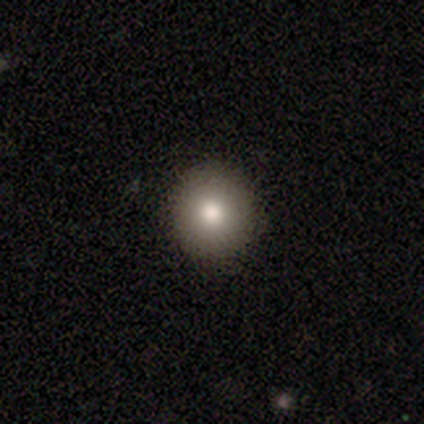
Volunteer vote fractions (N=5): Volunteers were most divided on "smooth or featured" (2-way tie): featured or disk: 40%, star or artifact: 40%, smooth: 20%. More confident: edge-on disk — no (100%); bar — no (100%); spiral arms — no (100%); bulge size — moderate (100%); merging — none (100%).